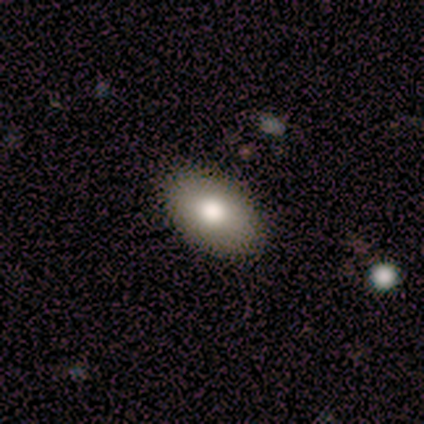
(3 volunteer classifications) Morphology: type=smooth (100%); roundness=in between (100%); merging=none (100%).